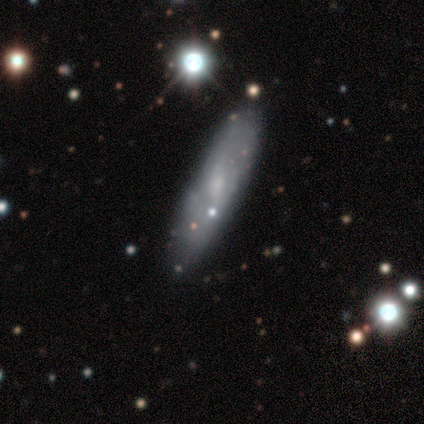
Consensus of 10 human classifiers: smooth-or-featured: featured or disk: 50% | smooth: 40% | star or artifact: 10%
  disk-edge-on: no: 80% | yes: 20%
    bar: weak: 50% (tied) | no: 50% (tied) | strong: 0%
    has-spiral-arms: yes: 50% (tied) | no: 50% (tied)
      spiral-winding: tight: 50% (tied) | medium: 50% (tied) | loose: 0%
      spiral-arm-count: can't tell: 100% | 1: 0% | 2: 0% | 3: 0% | 4: 0% | more than 4: 0%
    bulge-size: small: 75% | none: 25% | dominant: 0% | large: 0% | moderate: 0%
  merging: none: 67% | minor disturbance: 33% | major disturbance: 0% | merger: 0%